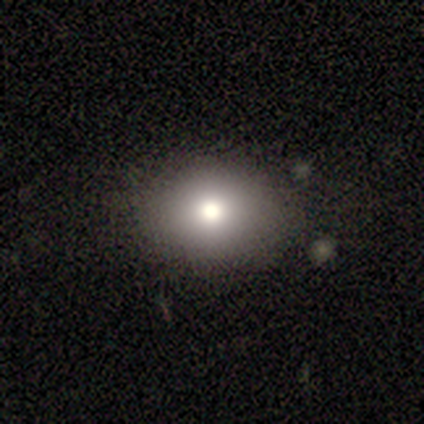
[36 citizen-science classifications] Q: Smooth or featured?
A: smooth (72%); runner-up: featured or disk (17%)
Q: How rounded?
A: in between (58%); runner-up: round (42%)
Q: Merging?
A: none (84%); runner-up: minor disturbance (16%)